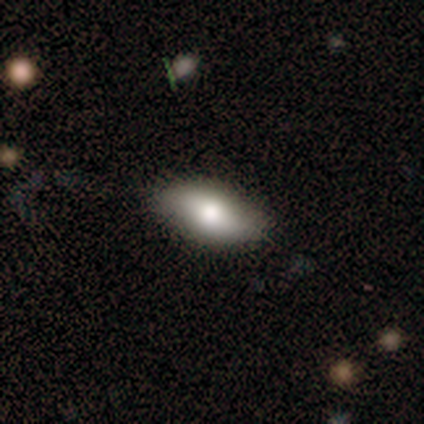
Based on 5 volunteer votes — smooth 60%, featured or disk 40%, star or artifact 0%. Down the decision tree: how rounded — in between (100%); merging — none (100%).